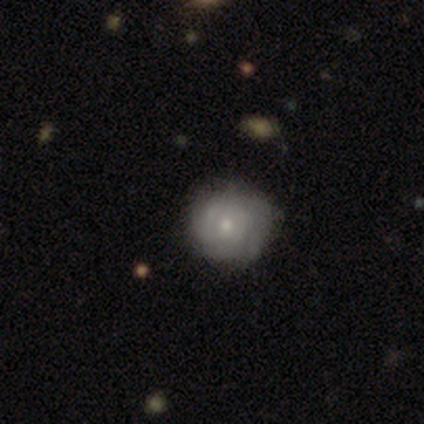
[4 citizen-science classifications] A featured or disk galaxy (100%) with no bar (75%), 1 (33%, tied with more than 4 and can't tell) tight (67%) spiral arms (75%) and a small central bulge (100%).

Vote fractions:
- Smooth or featured? featured or disk: 100% / smooth: 0% / star or artifact: 0%
- Edge-on disk? no: 100% / yes: 0%
- Bar? no: 75% / weak: 25% / strong: 0%
- Spiral arms? yes: 75% / no: 25%
- Spiral winding? tight: 67% / medium: 33% / loose: 0%
- Spiral arm count? 1: 33% (tied) / more than 4: 33% (tied) / can't tell: 33% (tied) / 2: 0% / 3: 0% / 4: 0%
- Bulge size? small: 100% / dominant: 0% / large: 0% / moderate: 0% / none: 0%
- Merging? none: 75% / minor disturbance: 25% / major disturbance: 0% / merger: 0%